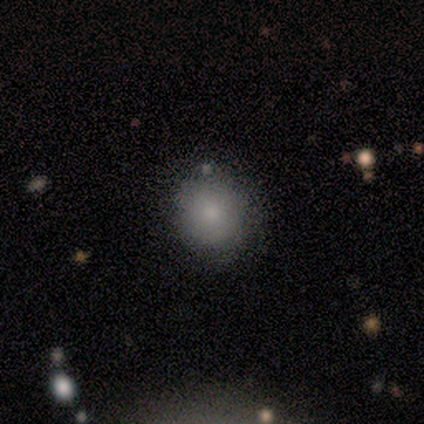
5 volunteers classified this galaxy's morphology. type=smooth (100%); roundness=round (100%); merging=none (60%).